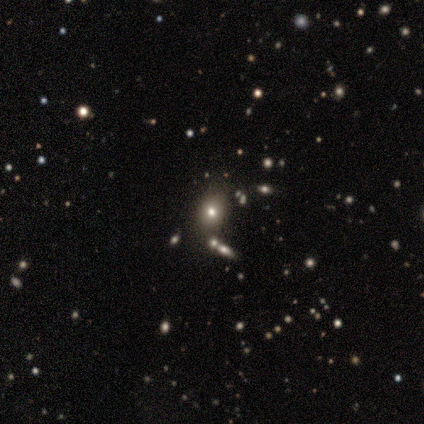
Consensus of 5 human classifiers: Smooth or featured? smooth (60%)
How rounded? in between (67%)
Merging? none (33%, tied with minor disturbance and major disturbance)